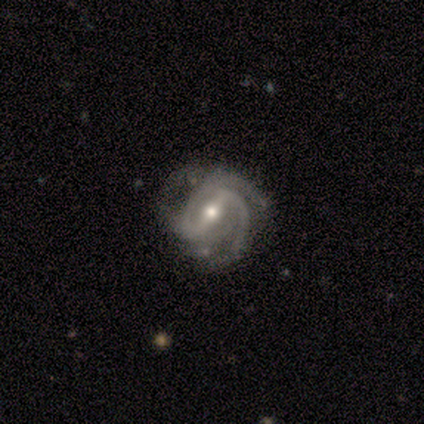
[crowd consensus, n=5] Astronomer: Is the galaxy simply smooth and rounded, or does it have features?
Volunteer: featured or disk — 100%.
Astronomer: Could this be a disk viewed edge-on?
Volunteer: no — 100%.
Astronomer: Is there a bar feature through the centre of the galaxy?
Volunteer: strong — 40%, tied with no at 40%.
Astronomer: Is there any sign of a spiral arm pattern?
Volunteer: yes — 100%.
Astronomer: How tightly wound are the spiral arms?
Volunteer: medium — 80%.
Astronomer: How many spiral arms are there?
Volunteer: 2 — 100%.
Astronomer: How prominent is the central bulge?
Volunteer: small — 60% (runner-up: moderate, 40%).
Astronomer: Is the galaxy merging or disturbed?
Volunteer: none — 60%.